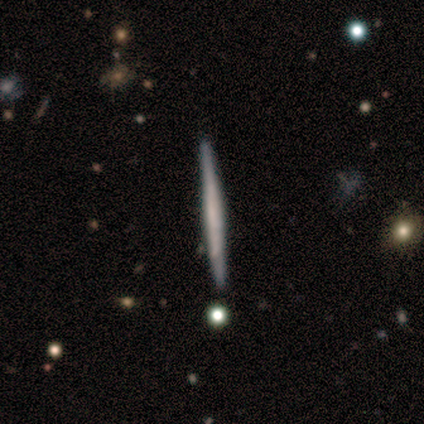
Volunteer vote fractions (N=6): Q: Smooth or featured?
A: smooth (67%); runner-up: featured or disk (33%)
Q: How rounded?
A: cigar-shaped (100%)
Q: Merging?
A: none (83%); runner-up: minor disturbance (17%)